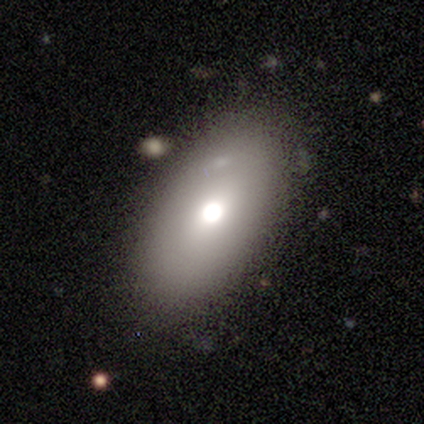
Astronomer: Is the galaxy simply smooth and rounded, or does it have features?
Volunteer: smooth — 75%.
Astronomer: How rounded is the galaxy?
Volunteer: in between — 100%.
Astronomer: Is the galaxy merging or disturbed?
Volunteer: none — 75%.